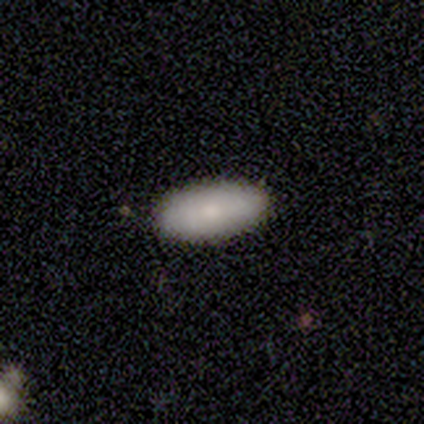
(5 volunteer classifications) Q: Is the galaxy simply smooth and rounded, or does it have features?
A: smooth — 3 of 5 (60%).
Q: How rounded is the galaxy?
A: in between — 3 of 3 (100%).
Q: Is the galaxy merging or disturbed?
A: none — 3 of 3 (100%).